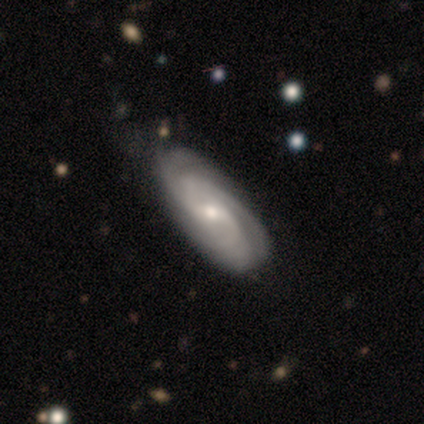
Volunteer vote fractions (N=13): Smooth or featured: featured or disk — 69% (smooth — 15%)
Edge-on disk: no — 100%
Bar: weak — 56% (no — 33%)
Spiral arms: yes — 100%
Spiral winding: medium — 56% (tight — 33%)
Spiral arm count: 2 — 33% (tied with 3 — 33%)
Bulge size: small — 56% (moderate — 44%)
Merging: none — 82% (minor disturbance — 18%)